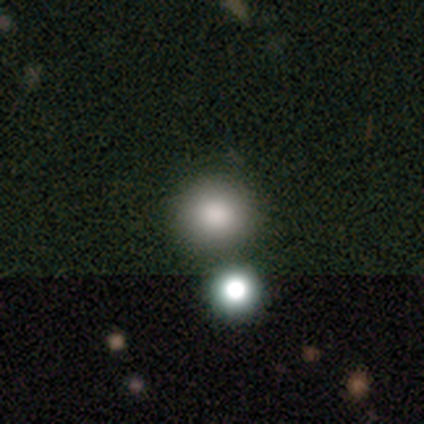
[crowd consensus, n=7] smooth 57%, star or artifact 29%, featured or disk 14%. Down the decision tree: how rounded — round (100%); merging — none (40%, tied with merger).